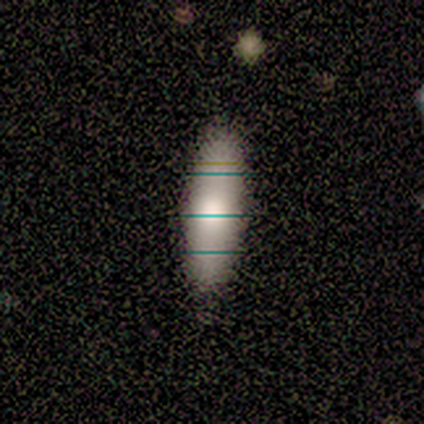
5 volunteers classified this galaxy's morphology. Smooth or featured?
  - smooth: 60% *
  - featured or disk: 40%
  - star or artifact: 0%
How rounded?
  - cigar-shaped: 67% *
  - in between: 33%
  - round: 0%
Merging?
  - none: 100% *
  - minor disturbance: 0%
  - major disturbance: 0%
  - merger: 0%